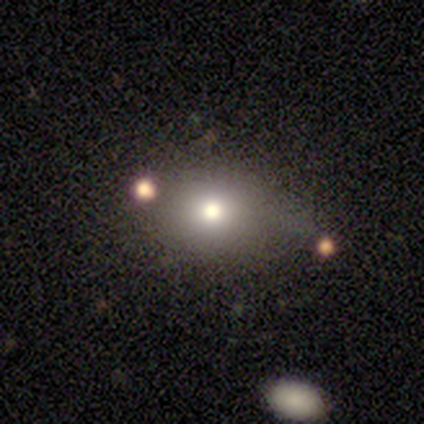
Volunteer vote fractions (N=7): smooth 86%, featured or disk 14%, star or artifact 0%. Down the decision tree: how rounded — in between (83%); merging — none (43%, tied with minor disturbance).